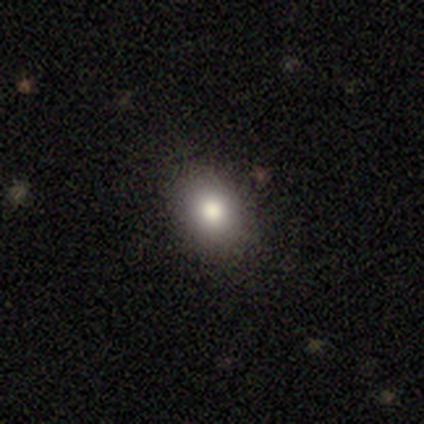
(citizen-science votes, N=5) This appears to be a smooth galaxy with no disk features (100%) that is in between round and cigar-shaped (60%). Merging: none (100%).